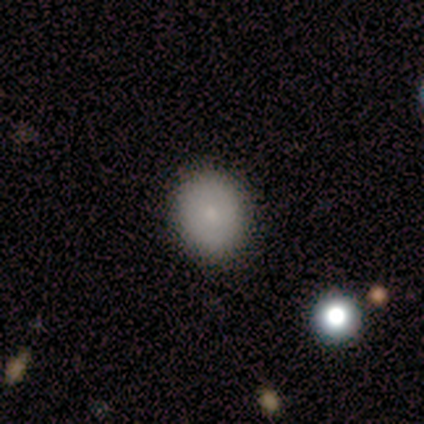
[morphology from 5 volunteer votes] Smooth or featured: smooth — 100%
How rounded: round — 80% (in between — 20%)
Merging: none — 100%